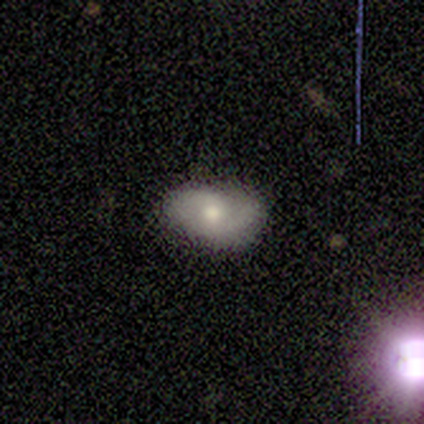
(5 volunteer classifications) Volunteers were most divided on "smooth or featured": smooth: 60%, featured or disk: 40%, star or artifact: 0%. More confident: how rounded — in between (100%); merging — none (60%).